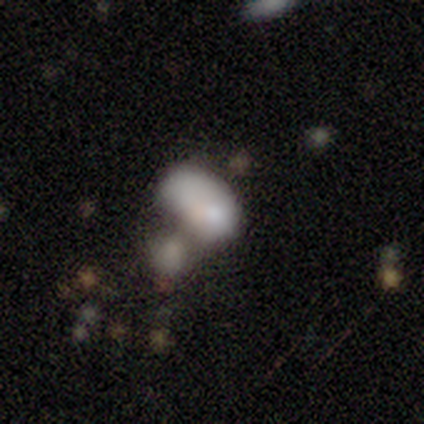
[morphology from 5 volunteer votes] Smooth or featured: smooth — 80% (featured or disk — 20%)
How rounded: in between — 75% (cigar-shaped — 25%)
Merging: major disturbance — 40% (tied with merger — 40%)